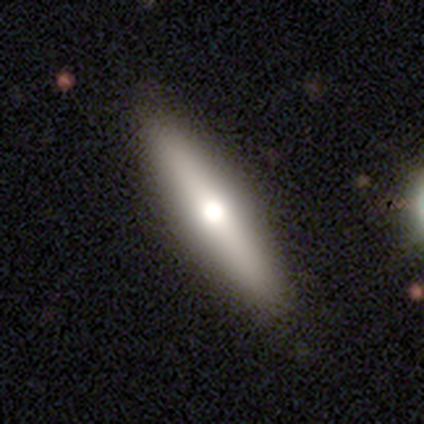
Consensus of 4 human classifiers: smooth-or-featured: smooth: 75% | featured or disk: 25% | star or artifact: 0%
  how-rounded: cigar-shaped: 67% | in between: 33% | round: 0%
  merging: none: 75% | minor disturbance: 25% | major disturbance: 0% | merger: 0%